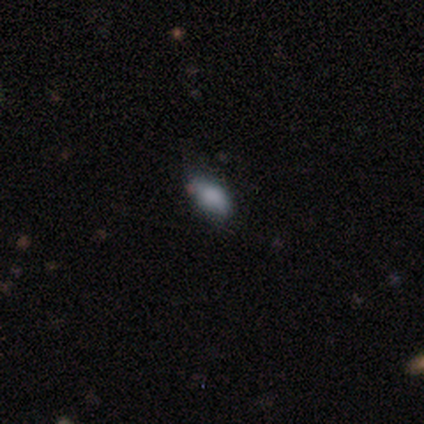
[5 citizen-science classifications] A smooth galaxy with no disk features (100%) that is in between round and cigar-shaped (100%).

Vote fractions:
- Smooth or featured? smooth: 100% / featured or disk: 0% / star or artifact: 0%
- How rounded? in between: 100% / round: 0% / cigar-shaped: 0%
- Merging? none: 60% / minor disturbance: 40% / major disturbance: 0% / merger: 0%